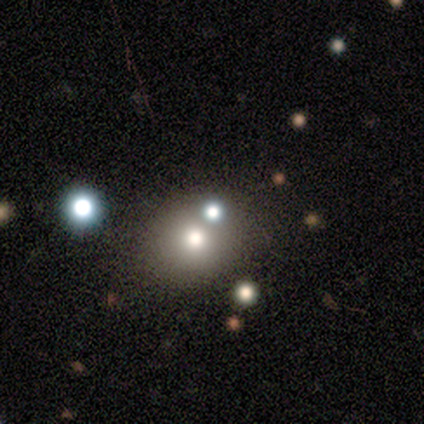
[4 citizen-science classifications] Smooth or featured?
  - smooth: 75% *
  - star or artifact: 25%
  - featured or disk: 0%
How rounded?
  - round: 100% *
  - in between: 0%
  - cigar-shaped: 0%
Merging?
  - none: 100% *
  - minor disturbance: 0%
  - major disturbance: 0%
  - merger: 0%